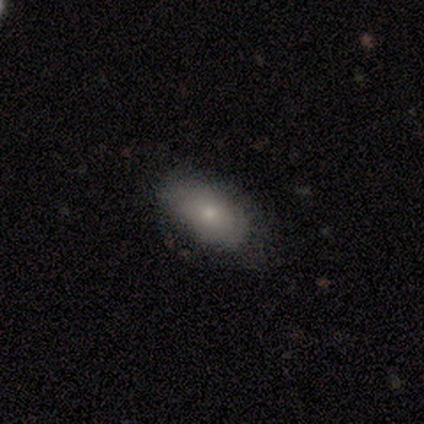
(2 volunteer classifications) Smooth or featured: smooth — 50% (tied with featured or disk — 50%)
How rounded: in between — 100%
Merging: none — 50% (tied with minor disturbance — 50%)